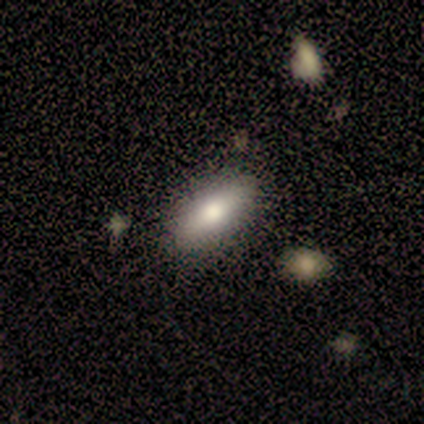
A smooth galaxy with no disk features (60%) that is in between round and cigar-shaped (100%).

Vote fractions:
- Smooth or featured? smooth: 60% / featured or disk: 20% / star or artifact: 20%
- How rounded? in between: 100% / round: 0% / cigar-shaped: 0%
- Merging? none: 100% / minor disturbance: 0% / major disturbance: 0% / merger: 0%